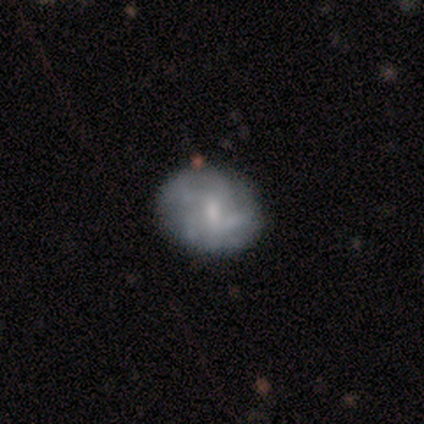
Volunteers were most divided on "smooth or featured": smooth: 60%, featured or disk: 40%, star or artifact: 0%. More confident: how rounded — in between (100%); merging — none (100%).